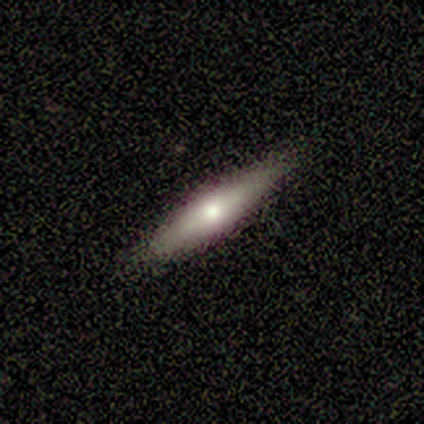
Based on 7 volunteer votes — Smooth or featured: smooth — 71% (featured or disk — 14%)
How rounded: cigar-shaped — 60% (in between — 40%)
Merging: none — 100%